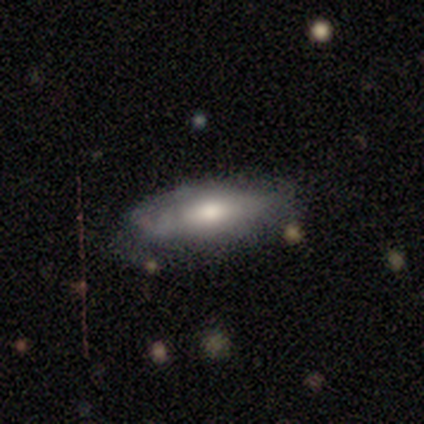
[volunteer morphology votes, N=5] This is likely a smooth galaxy (60%). How rounded: likely in between (67%). Merging: possibly none (50%).